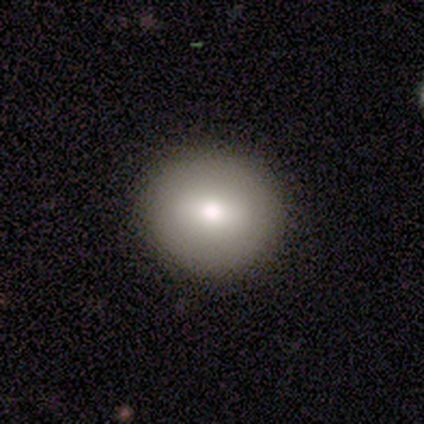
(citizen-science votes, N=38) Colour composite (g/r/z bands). It shows a smooth galaxy with no disk features (76%) that is round (93%). Merging: none (97%).